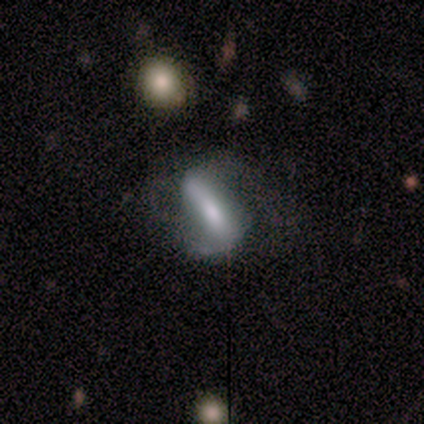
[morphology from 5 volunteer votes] Smooth or featured?
  - featured or disk: 80% *
  - smooth: 20%
  - star or artifact: 0%
Edge-on disk?
  - no: 75% *
  - yes: 25%
Bar?
  - strong: 67% *
  - weak: 33%
  - no: 0%
Spiral arms?
  - yes: 100% *
  - no: 0%
Spiral winding?
  - tight: 33% * (tied)
  - medium: 33% * (tied)
  - loose: 33% * (tied)
Spiral arm count?
  - 2: 100% *
  - 1: 0%
  - 3: 0%
  - 4: 0%
  - more than 4: 0%
  - can't tell: 0%
Bulge size?
  - large: 67% *
  - small: 33%
  - dominant: 0%
  - moderate: 0%
  - none: 0%
Merging?
  - none: 40% * (tied)
  - minor disturbance: 40% * (tied)
  - major disturbance: 20%
  - merger: 0%